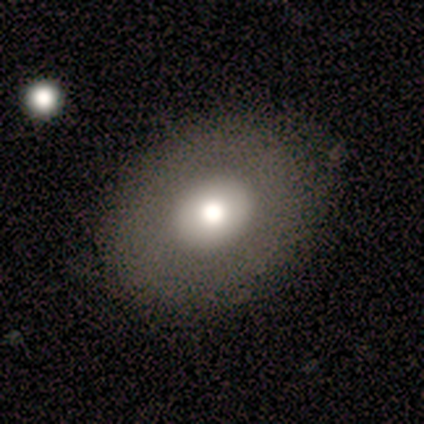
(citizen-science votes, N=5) Smooth or featured? smooth (60%)
How rounded? round (67%)
Merging? none (40%, tied with major disturbance)